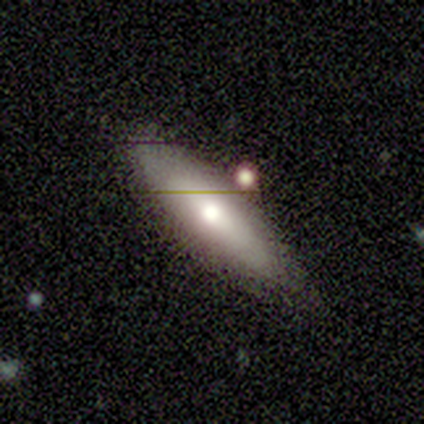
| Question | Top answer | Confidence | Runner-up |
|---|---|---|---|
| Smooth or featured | smooth | 100% | — |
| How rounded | cigar-shaped | 50% | round (25%) |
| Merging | none | 100% | — |